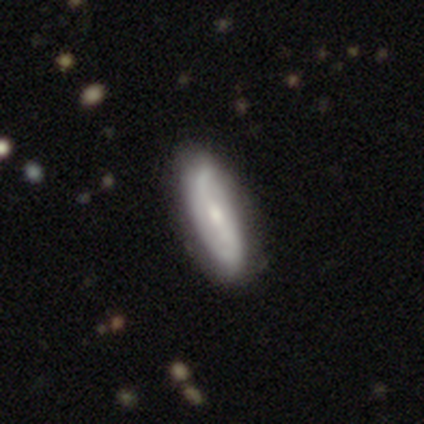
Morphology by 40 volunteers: type=featured or disk (70%); edge-on=no (82%); bar=weak (48%); spiral arms=yes (91%); winding=loose (48%); arm count=2 (95%); bulge=small (57%); merging=none (57%).